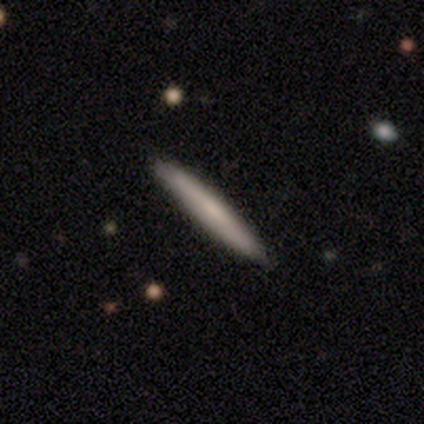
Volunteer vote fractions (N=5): Morphology: type=smooth (40%, tied with featured or disk); roundness=cigar-shaped (100%); merging=none (100%).